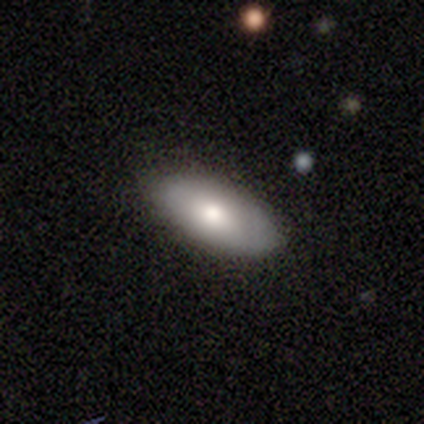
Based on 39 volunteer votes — Volunteers were most divided on "merging": none: 82%, minor disturbance: 16%, major disturbance: 3%, merger: 0%. More confident: how rounded — in between (91%); smooth or featured — smooth (87%).